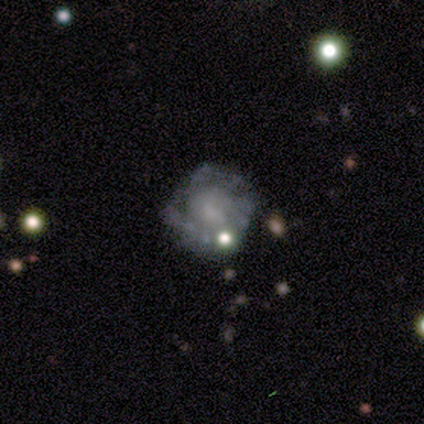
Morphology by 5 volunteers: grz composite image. It shows a featured or disk galaxy (100%) with no bar (100%), no spiral arms (60%) and a small central bulge (40%, tied with none). Merging: none (80%).